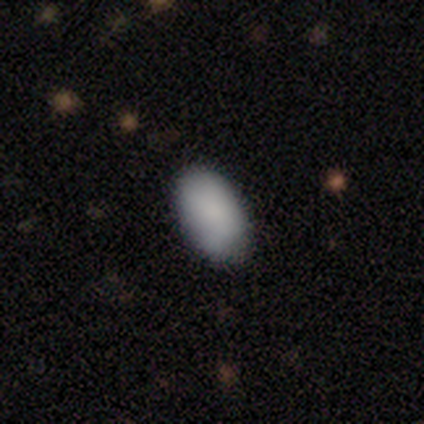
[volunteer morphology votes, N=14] smooth-or-featured: smooth: 100% | featured or disk: 0% | star or artifact: 0%
  how-rounded: in between: 100% | round: 0% | cigar-shaped: 0%
  merging: none: 86% | minor disturbance: 14% | major disturbance: 0% | merger: 0%